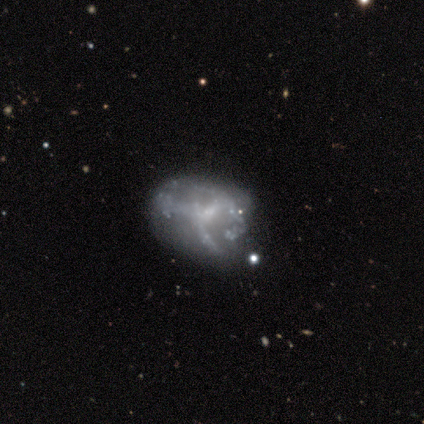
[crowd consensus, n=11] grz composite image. It shows a featured or disk galaxy (82%) with no bar (62%), 3 (75%) loose (75%) spiral arms (50%, tied with no) and a small central bulge (75%). Merging: none (64%).